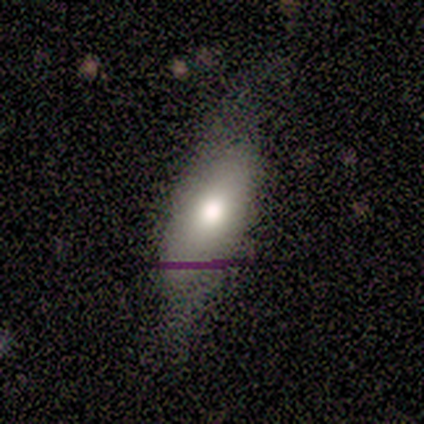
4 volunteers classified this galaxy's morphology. A smooth galaxy with no disk features (75%) that is in between round and cigar-shaped (100%).

Vote fractions:
- Smooth or featured? smooth: 75% / featured or disk: 25% / star or artifact: 0%
- How rounded? in between: 100% / round: 0% / cigar-shaped: 0%
- Merging? major disturbance: 50% / none: 25% / minor disturbance: 25% / merger: 0%